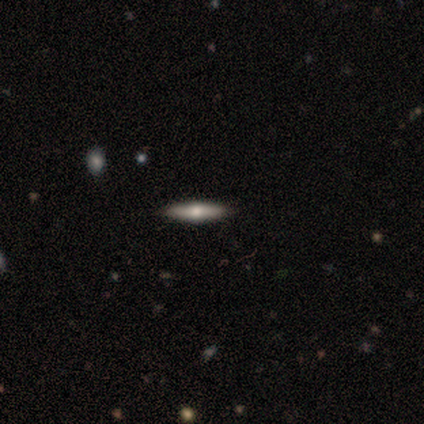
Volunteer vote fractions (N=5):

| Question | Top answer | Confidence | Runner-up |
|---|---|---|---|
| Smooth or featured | featured or disk | 60% | smooth (40%) |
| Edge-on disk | yes | 100% | — |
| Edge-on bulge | rounded | 100% | — |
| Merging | none | 100% | — |